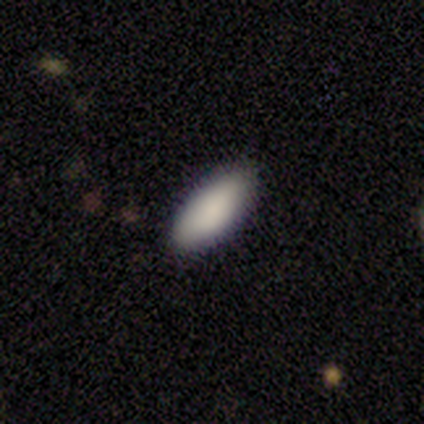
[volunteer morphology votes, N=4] This is clearly a smooth galaxy (100%). How rounded: likely in between (75%). Merging: clearly none (100%).